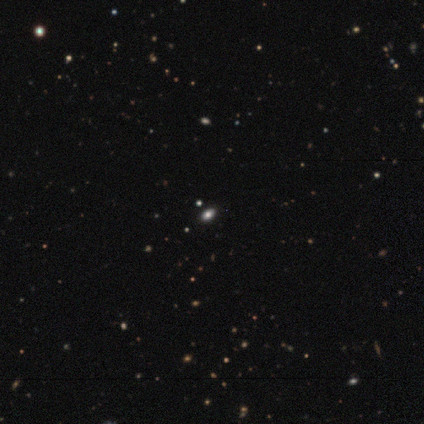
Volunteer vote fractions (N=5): This is likely a smooth galaxy (60%). How rounded: likely in between (67%). Merging: clearly none (100%).